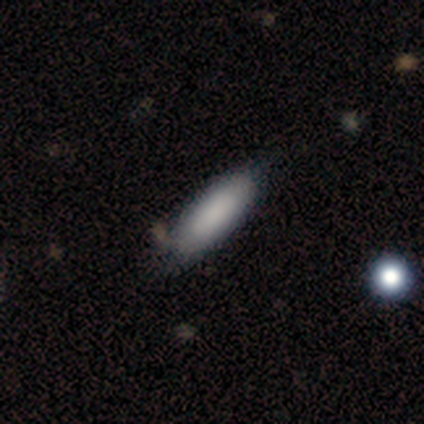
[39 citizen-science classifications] Smooth or featured: smooth — 79% (featured or disk — 10%)
How rounded: in between — 68% (cigar-shaped — 32%)
Merging: none — 63% (minor disturbance — 20%)